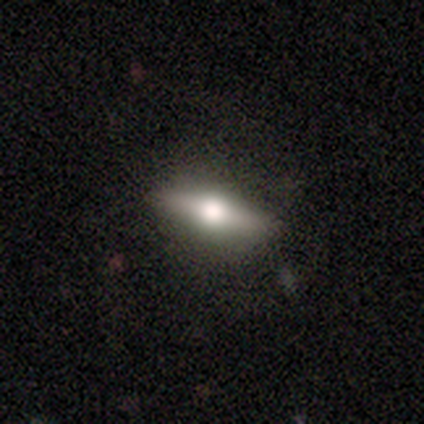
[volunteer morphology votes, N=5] featured or disk 60%, smooth 40%, star or artifact 0%. Down the decision tree: edge-on disk — yes (100%); edge-on bulge — rounded (100%); merging — none (100%).